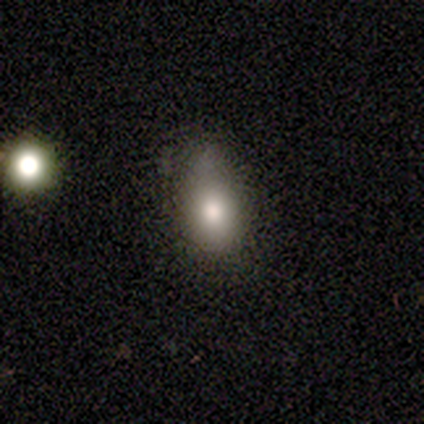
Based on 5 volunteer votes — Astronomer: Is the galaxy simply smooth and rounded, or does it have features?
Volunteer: smooth — 100%.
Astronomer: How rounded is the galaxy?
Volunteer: in between — 100%.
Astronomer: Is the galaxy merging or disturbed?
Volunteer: none — 60% (runner-up: minor disturbance, 40%).